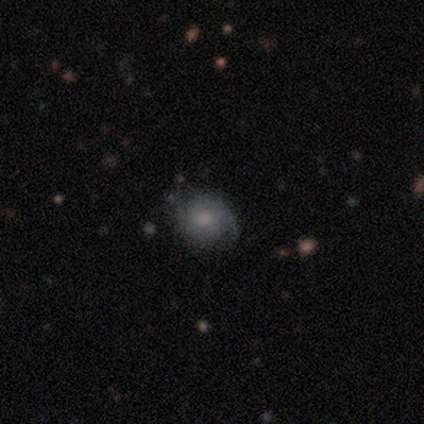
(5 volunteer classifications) Smooth or featured: smooth — 80% (featured or disk — 20%)
How rounded: round — 100%
Merging: none — 60% (minor disturbance — 20%)